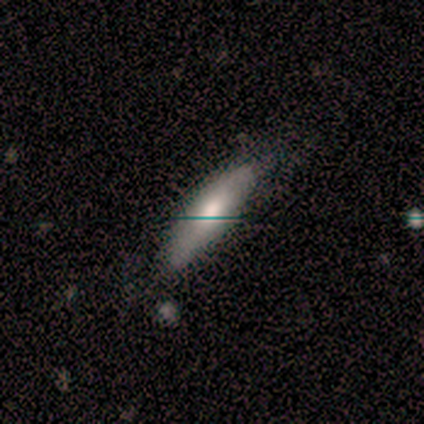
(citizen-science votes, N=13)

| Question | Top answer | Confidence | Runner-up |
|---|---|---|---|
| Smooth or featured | smooth | 85% | featured or disk (15%) |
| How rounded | in between | 55% | cigar-shaped (45%) |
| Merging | none | 46% | tied: minor disturbance (46%) |